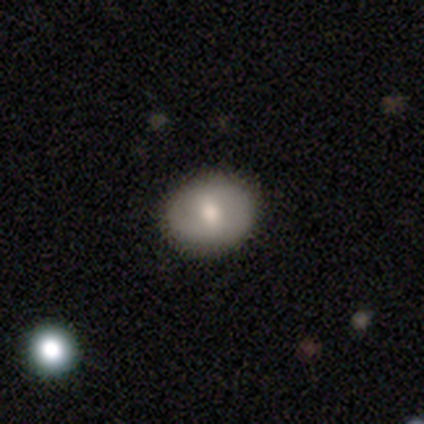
Overall: smooth (80%). How rounded: round (50%, tied with in between). Merging: none (100%).